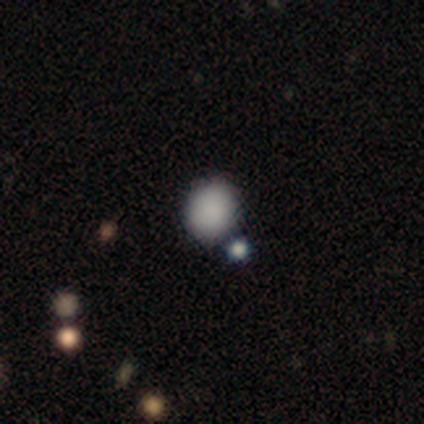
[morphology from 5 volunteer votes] A smooth galaxy with no disk features (100%) that is round (60%). Merging: none (40%, tied with merger).